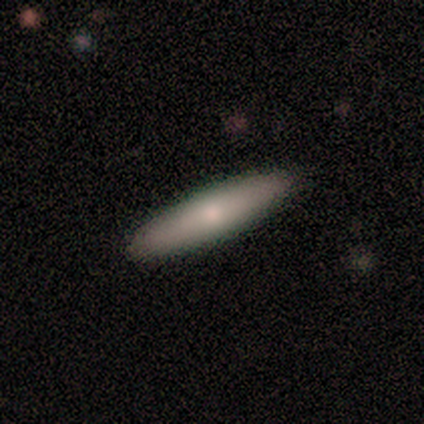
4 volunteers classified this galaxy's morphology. Overall: smooth (75%). How rounded: cigar-shaped (67%; in between 33%). Merging: none (75%).